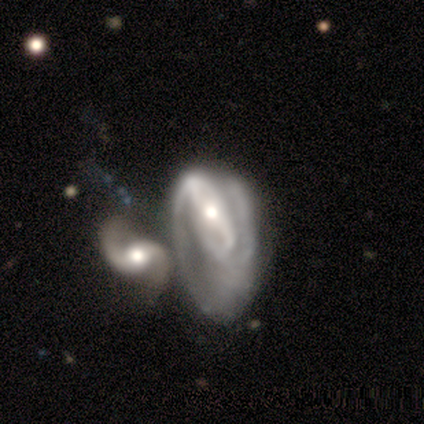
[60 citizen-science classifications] Smooth or featured: featured or disk — 92% (smooth — 5%)
Edge-on disk: no — 100%
Bar: strong — 42% (weak — 40%)
Spiral arms: yes — 89% (no — 11%)
Spiral winding: medium — 43% (tight — 31%)
Spiral arm count: 2 — 61% (can't tell — 22%)
Bulge size: moderate — 69% (small — 22%)
Merging: merger — 62% (major disturbance — 21%)